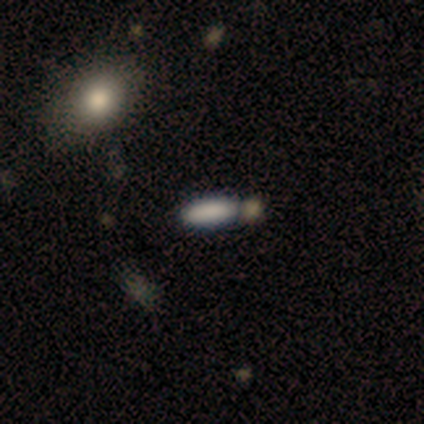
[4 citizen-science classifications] A smooth galaxy with no disk features (50%, tied with star or artifact) that is in between round and cigar-shaped (100%). Merging: none (50%, tied with merger).